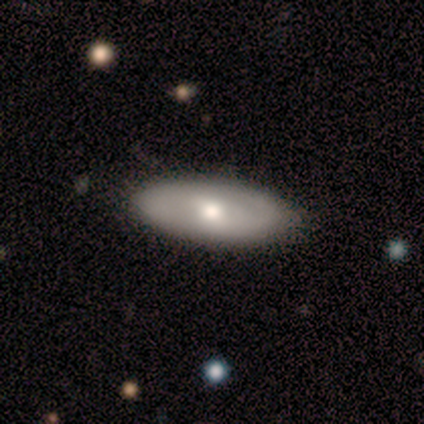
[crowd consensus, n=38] Morphology: type=smooth (58%); roundness=in between (73%); merging=none (92%).